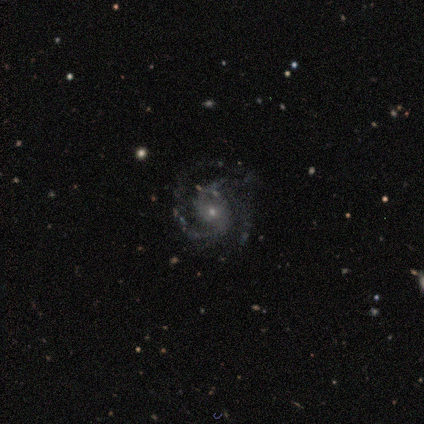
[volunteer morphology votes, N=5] Smooth or featured? featured or disk (80%)
Edge-on disk? no (100%)
Bar? no (100%)
Spiral arms? yes (100%)
Spiral winding? medium (75%)
Spiral arm count? 2 (75%)
Bulge size? moderate (50%, tied with small)
Merging? none (60%)